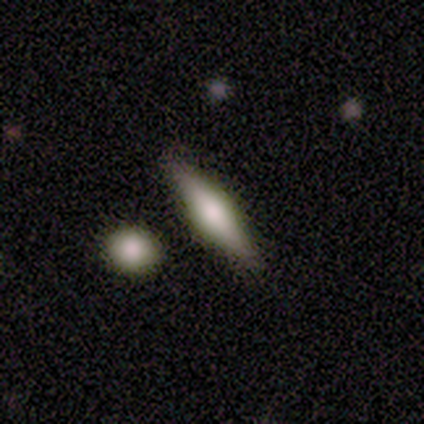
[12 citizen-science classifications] A smooth galaxy with no disk features (50%) that is cigar-shaped (67%).

Vote fractions:
- Smooth or featured? smooth: 50% / featured or disk: 42% / star or artifact: 8%
- How rounded? cigar-shaped: 67% / in between: 33% / round: 0%
- Merging? none: 91% / minor disturbance: 9% / major disturbance: 0% / merger: 0%